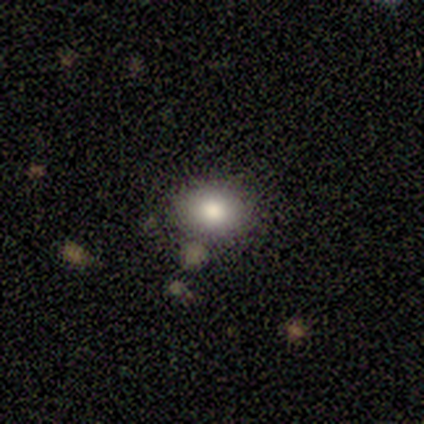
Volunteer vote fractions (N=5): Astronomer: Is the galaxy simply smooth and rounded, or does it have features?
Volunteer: smooth — 100%.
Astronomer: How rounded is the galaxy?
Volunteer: in between — 60% (runner-up: round, 40%).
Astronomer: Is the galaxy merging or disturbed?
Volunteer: none — 60%.